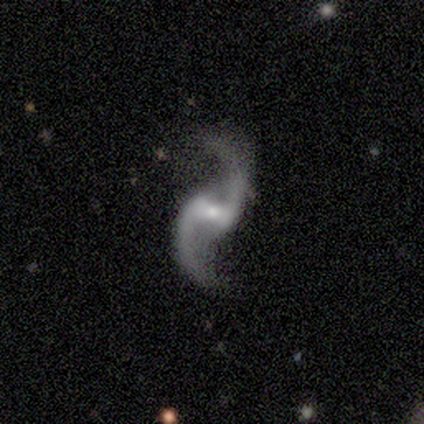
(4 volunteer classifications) Smooth or featured?
  - featured or disk: 100% *
  - smooth: 0%
  - star or artifact: 0%
Edge-on disk?
  - no: 100% *
  - yes: 0%
Bar?
  - strong: 75% *
  - weak: 25%
  - no: 0%
Spiral arms?
  - yes: 100% *
  - no: 0%
Spiral winding?
  - loose: 100% *
  - tight: 0%
  - medium: 0%
Spiral arm count?
  - 2: 100% *
  - 1: 0%
  - 3: 0%
  - 4: 0%
  - more than 4: 0%
  - can't tell: 0%
Bulge size?
  - moderate: 50% * (tied)
  - small: 50% * (tied)
  - dominant: 0%
  - large: 0%
  - none: 0%
Merging?
  - none: 50% *
  - minor disturbance: 25%
  - major disturbance: 25%
  - merger: 0%